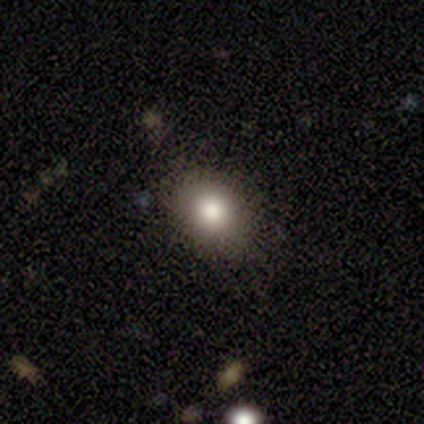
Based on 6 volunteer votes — A smooth galaxy with no disk features (100%) that is in between round and cigar-shaped (67%). Merging: none (83%).